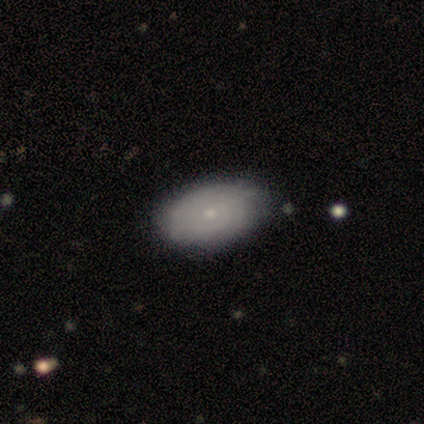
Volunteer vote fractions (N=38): featured or disk 58%, smooth 42%, star or artifact 0%. Down the decision tree: edge-on disk — no (95%); bar — no (95%); spiral arms — yes (81%); spiral arm count — can't tell (82%); spiral winding — tight (76%); bulge size — small (86%); merging — none (82%).